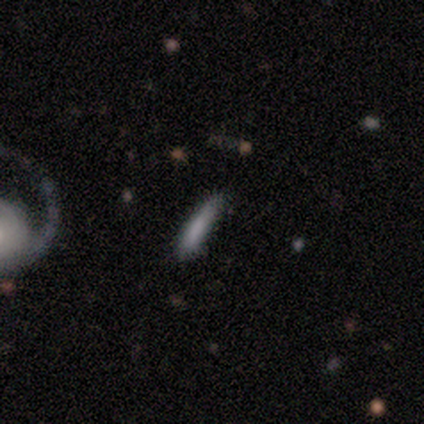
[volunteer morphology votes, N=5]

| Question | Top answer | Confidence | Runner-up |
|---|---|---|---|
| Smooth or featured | smooth | 80% | featured or disk (20%) |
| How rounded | cigar-shaped | 100% | — |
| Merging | none | 80% | minor disturbance (20%) |